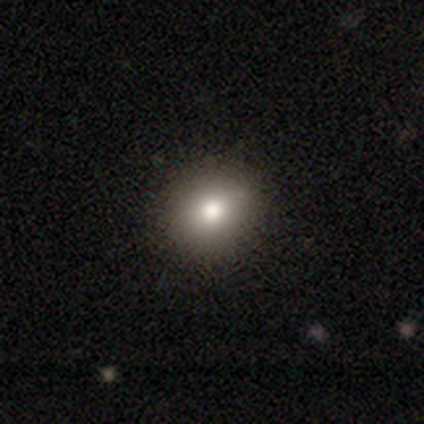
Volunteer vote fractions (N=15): smooth_or_featured: smooth (p=0.87) [alt: featured or disk p=0.13]
how_rounded: round (p=0.69) [alt: in between p=0.31]
merging: none (p=0.93) [alt: minor disturbance p=0.07]